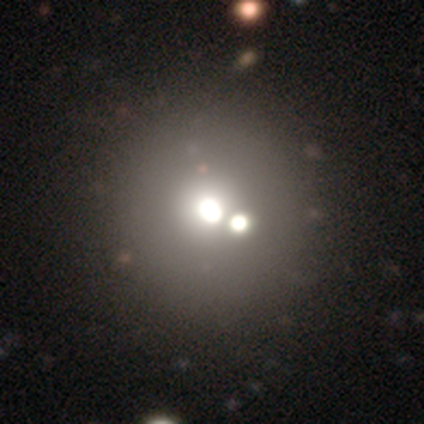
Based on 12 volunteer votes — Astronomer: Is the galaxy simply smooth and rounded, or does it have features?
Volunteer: smooth — 42% (runner-up: featured or disk, 33%).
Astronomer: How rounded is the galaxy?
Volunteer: round — 100%.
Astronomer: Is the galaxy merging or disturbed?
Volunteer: none — 67%.